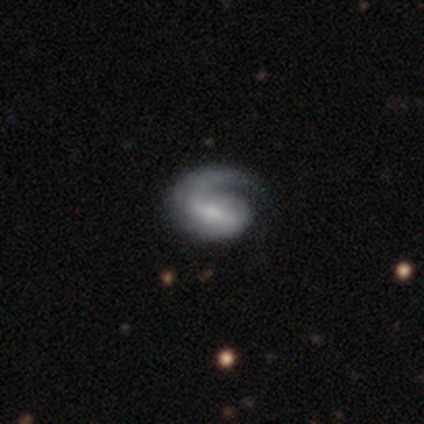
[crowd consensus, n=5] This appears to be a featured or disk galaxy (100%) with a weak bar (60%), 1 (80%) tight (40%, tied with loose) spiral arms (100%) and a small central bulge (40%, tied with none). Merging: none (40%, tied with major disturbance).